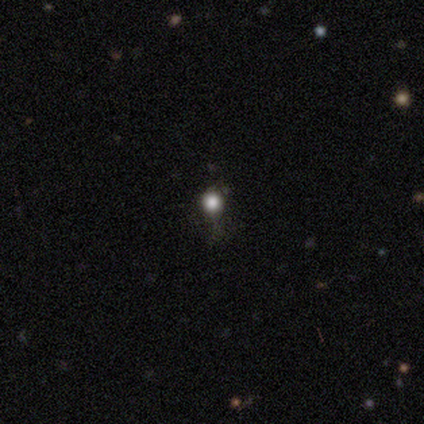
Volunteers were most divided on "how rounded": round: 60%, in between: 40%, cigar-shaped: 0%. More confident: smooth or featured — smooth (100%); merging — none (100%).